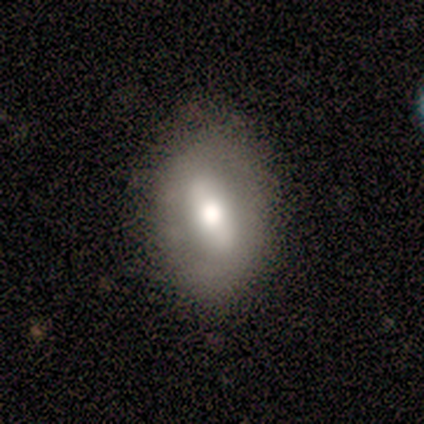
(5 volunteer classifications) Smooth or featured: smooth — 60% (featured or disk — 40%)
How rounded: in between — 100%
Merging: none — 60% (minor disturbance — 40%)